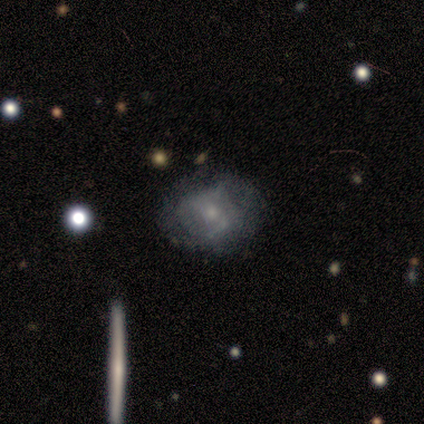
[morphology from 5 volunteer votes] featured or disk 60%, smooth 40%, star or artifact 0%. Down the decision tree: edge-on disk — no (100%); bar — no (100%); spiral arms — yes (67%); spiral arm count — 2 (50%, tied with 3); spiral winding — tight (50%, tied with medium); bulge size — dominant (33%, tied with moderate and small); merging — none (80%).